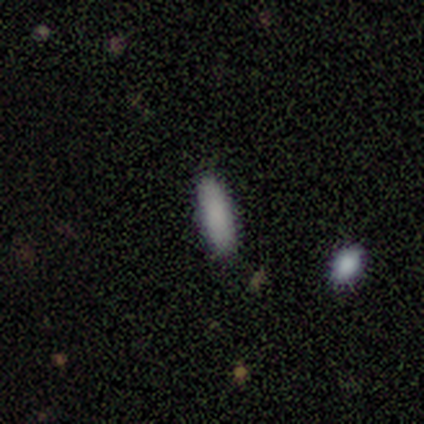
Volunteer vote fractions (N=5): Volunteers were most divided on "how rounded": cigar-shaped: 80%, in between: 20%, round: 0%. More confident: smooth or featured — smooth (100%); merging — none (80%).